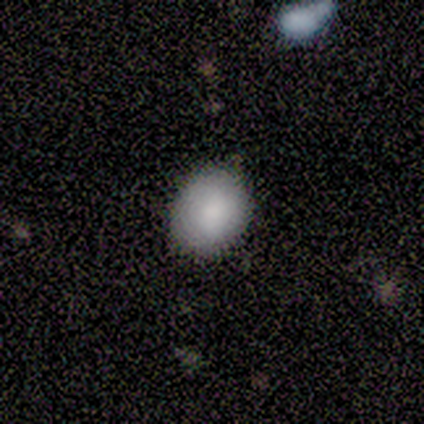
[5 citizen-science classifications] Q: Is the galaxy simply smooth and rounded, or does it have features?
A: smooth — 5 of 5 (100%).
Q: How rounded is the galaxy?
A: round — 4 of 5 (80%).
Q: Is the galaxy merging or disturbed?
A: none — 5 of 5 (100%).